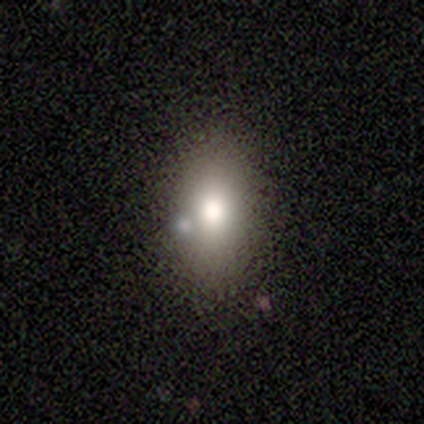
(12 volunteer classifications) A smooth galaxy with no disk features (67%) that is in between round and cigar-shaped (75%).

Vote fractions:
- Smooth or featured? smooth: 67% / featured or disk: 25% / star or artifact: 8%
- How rounded? in between: 75% / round: 25% / cigar-shaped: 0%
- Merging? none: 64% / merger: 18% / minor disturbance: 9% / major disturbance: 9%